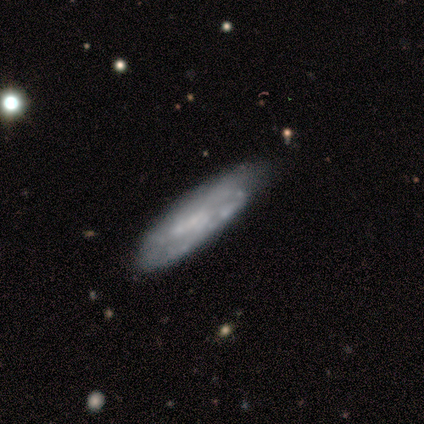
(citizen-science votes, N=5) Q: Smooth or featured?
A: smooth (60%); runner-up: featured or disk (40%)
Q: How rounded?
A: cigar-shaped (67%); runner-up: in between (33%)
Q: Merging?
A: none (80%); runner-up: major disturbance (20%)